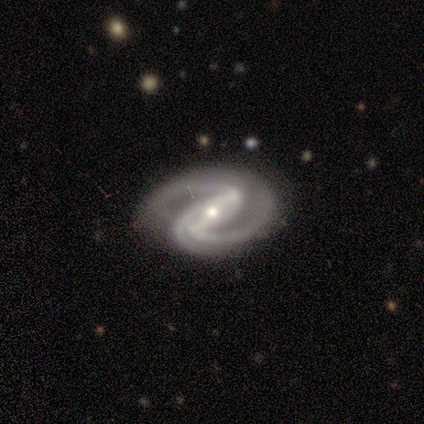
Smooth or featured? featured or disk (95%)
Edge-on disk? no (95%)
Bar? strong (66%)
Spiral arms? yes (100%)
Spiral winding? medium (60%)
Spiral arm count? 2 (63%)
Bulge size? small (77%)
Merging? none (82%)